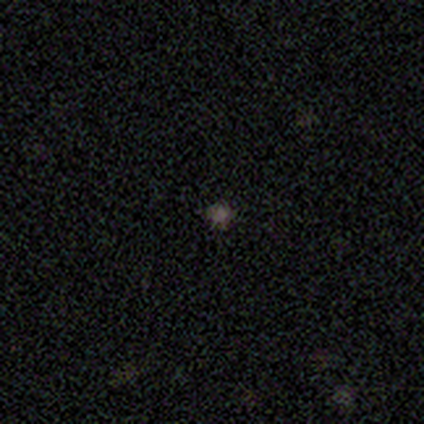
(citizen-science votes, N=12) Q: Smooth or featured?
A: smooth (67%); runner-up: star or artifact (25%)
Q: How rounded?
A: round (88%); runner-up: in between (12%)
Q: Merging?
A: none (100%)